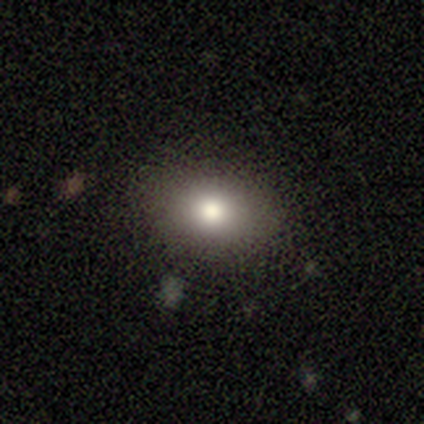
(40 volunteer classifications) This is likely a smooth galaxy (78%). How rounded: likely in between (65%). Merging: clearly none (89%).